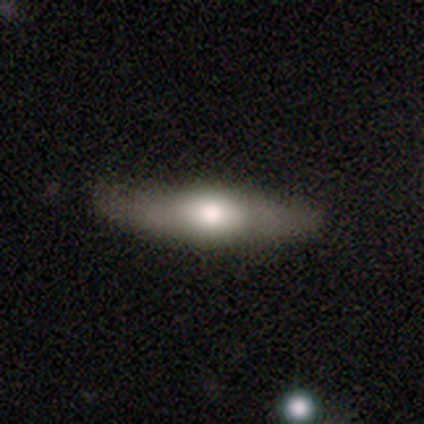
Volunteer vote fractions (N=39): This is possibly a featured or disk galaxy (51%). It is clearly viewed edge-on (85%). Edge-on bulge: clearly rounded (94%). Merging: marginally none (41%).